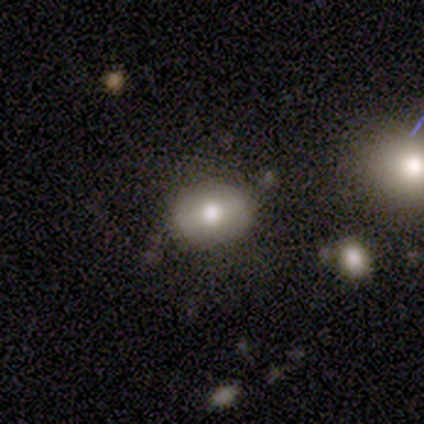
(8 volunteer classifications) Smooth or featured? smooth (62%)
How rounded? in between (60%)
Merging? none (71%)